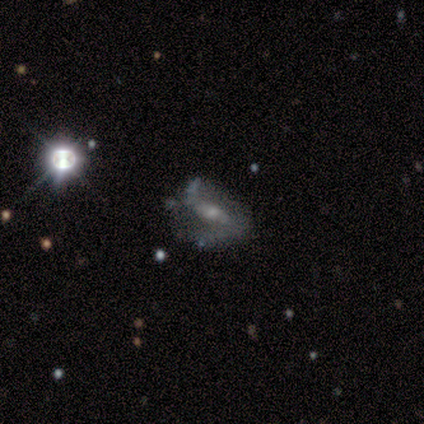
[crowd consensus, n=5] smooth-or-featured: featured or disk: 80% | smooth: 20% | star or artifact: 0%
  disk-edge-on: no: 100% | yes: 0%
    bar: strong: 75% | weak: 25% | no: 0%
    has-spiral-arms: yes: 50% (tied) | no: 50% (tied)
      spiral-winding: loose: 100% | tight: 0% | medium: 0%
      spiral-arm-count: 2: 50% (tied) | can't tell: 50% (tied) | 1: 0% | 3: 0% | 4: 0% | more than 4: 0%
    bulge-size: moderate: 50% (tied) | small: 50% (tied) | dominant: 0% | large: 0% | none: 0%
  merging: none: 60% | major disturbance: 40% | minor disturbance: 0% | merger: 0%